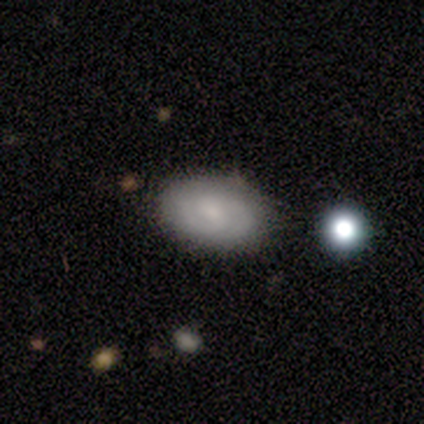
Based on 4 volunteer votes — This is possibly a smooth galaxy (50%, tied with featured or disk). How rounded: clearly in between (100%). Merging: likely none (75%).